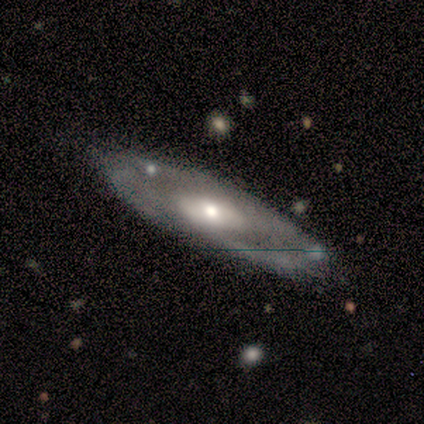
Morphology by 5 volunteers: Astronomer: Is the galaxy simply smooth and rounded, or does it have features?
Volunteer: featured or disk — 60% (runner-up: smooth, 40%).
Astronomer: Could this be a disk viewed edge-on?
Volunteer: no — 67%.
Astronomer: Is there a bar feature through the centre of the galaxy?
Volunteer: no — 100%.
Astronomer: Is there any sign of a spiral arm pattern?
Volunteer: yes — 50%, tied with no at 50%.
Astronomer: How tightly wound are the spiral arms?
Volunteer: loose — 100%.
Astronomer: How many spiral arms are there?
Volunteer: can't tell — 100%.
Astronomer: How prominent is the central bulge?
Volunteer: small — 100%.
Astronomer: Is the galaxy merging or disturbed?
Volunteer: none — 60%.